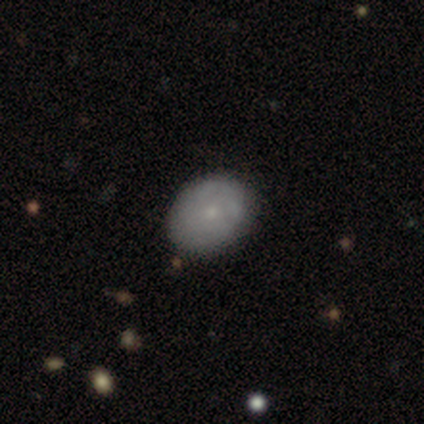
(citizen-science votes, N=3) smooth_or_featured: smooth (p=0.67) [alt: featured or disk p=0.33]
how_rounded: round (p=1.00)
merging: none (p=0.67) [alt: minor disturbance p=0.33]